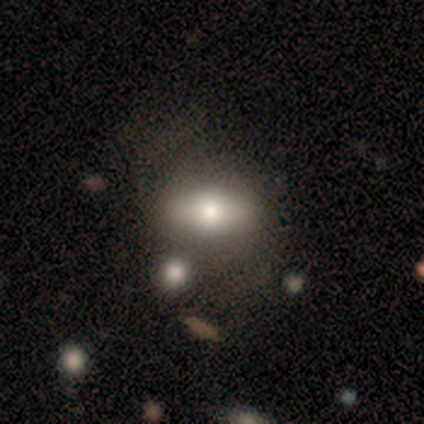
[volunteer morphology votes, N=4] This is likely a smooth galaxy (75%). How rounded: likely in between (67%). Merging: possibly none (50%).